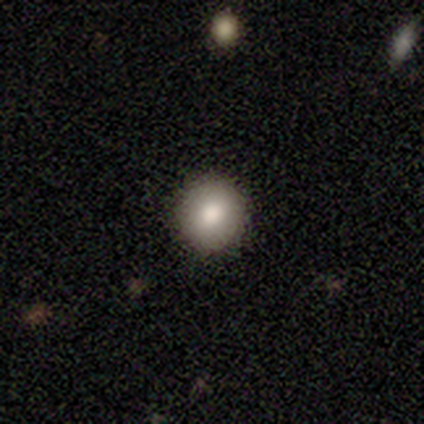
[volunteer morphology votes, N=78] smooth_or_featured: smooth (p=0.87) [alt: featured or disk p=0.06]
how_rounded: round (p=0.91) [alt: in between p=0.07]
merging: none (p=0.47) [alt: minor disturbance p=0.01]